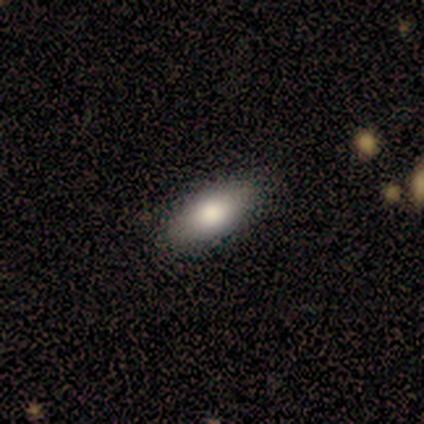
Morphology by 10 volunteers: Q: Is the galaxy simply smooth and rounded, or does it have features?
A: smooth — 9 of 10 (90%).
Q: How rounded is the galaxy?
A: in between — 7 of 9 (78%).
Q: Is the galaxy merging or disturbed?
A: none — 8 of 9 (89%).